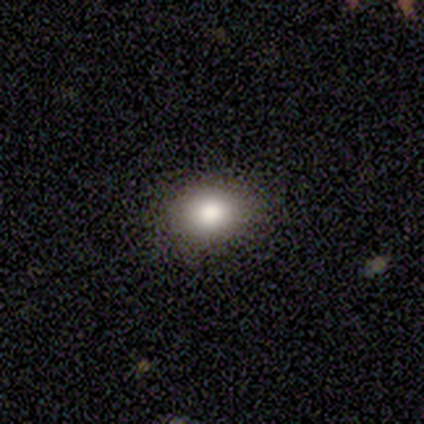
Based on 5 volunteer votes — This is clearly a smooth galaxy (100%). How rounded: likely in between (60%). Merging: clearly none (100%).